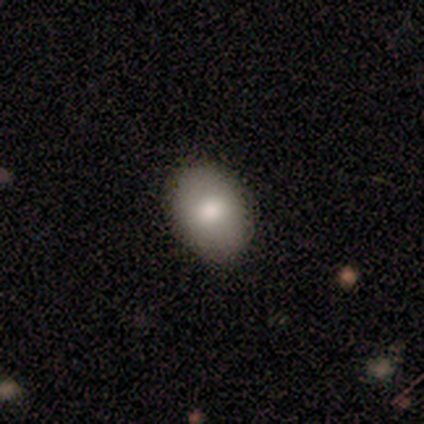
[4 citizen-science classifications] This appears to be a smooth galaxy with no disk features (50%) that is round (100%). Merging: none (100%).